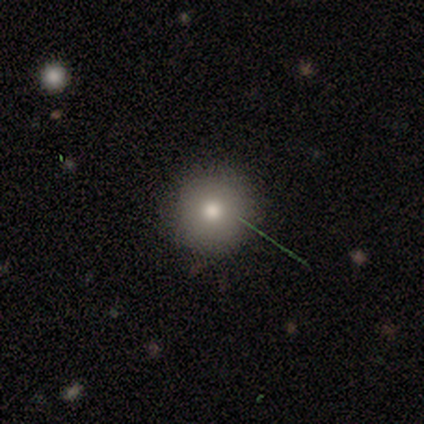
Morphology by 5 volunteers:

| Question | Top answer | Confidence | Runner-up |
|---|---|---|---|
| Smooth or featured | smooth | 100% | — |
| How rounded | round | 100% | — |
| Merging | none | 100% | — |